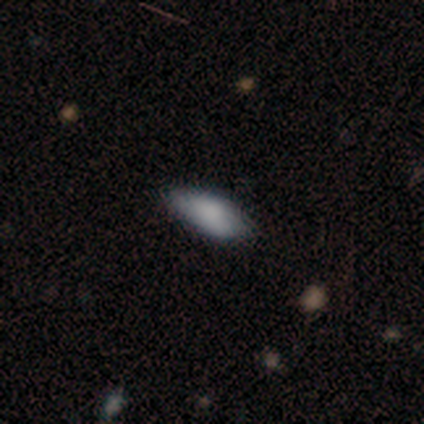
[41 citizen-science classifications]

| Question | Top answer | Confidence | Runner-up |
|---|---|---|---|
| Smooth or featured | smooth | 93% | featured or disk (5%) |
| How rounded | in between | 95% | round (3%) |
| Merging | none | 57% | minor disturbance (18%) |